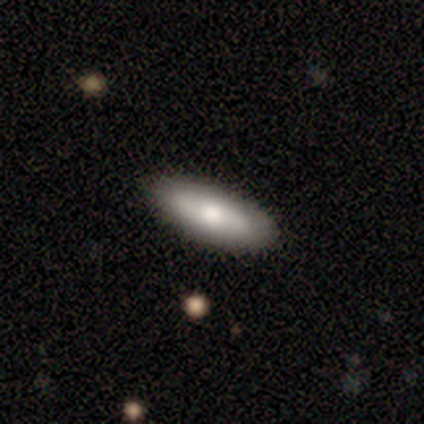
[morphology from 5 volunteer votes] A smooth galaxy with no disk features (60%) that is in between round and cigar-shaped (100%).

Vote fractions:
- Smooth or featured? smooth: 60% / featured or disk: 40% / star or artifact: 0%
- How rounded? in between: 100% / round: 0% / cigar-shaped: 0%
- Merging? none: 80% / minor disturbance: 20% / major disturbance: 0% / merger: 0%